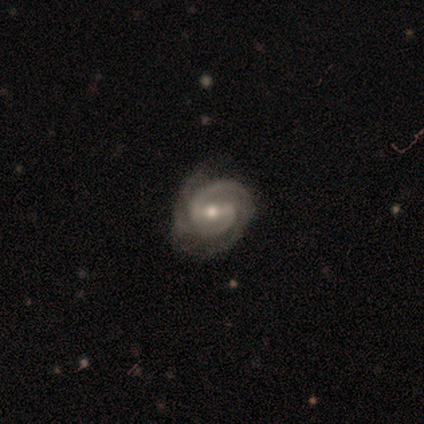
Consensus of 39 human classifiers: Smooth or featured? 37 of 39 (95%) said featured or disk. Edge-on disk? 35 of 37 (95%) said no. Bar? 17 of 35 (49%) said weak. Spiral arms? 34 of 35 (97%) said yes. Spiral winding? 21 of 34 (62%) said tight. Spiral arm count? 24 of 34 (71%) said 2. Bulge size? 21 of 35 (60%) said moderate. Merging? 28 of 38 (74%) said none.